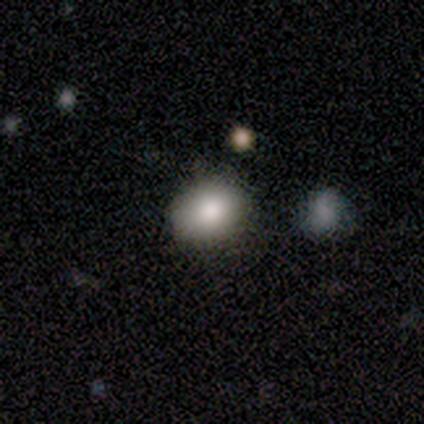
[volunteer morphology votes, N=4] A smooth galaxy with no disk features (100%) that is round (50%, tied with in between). Merging: none (75%).